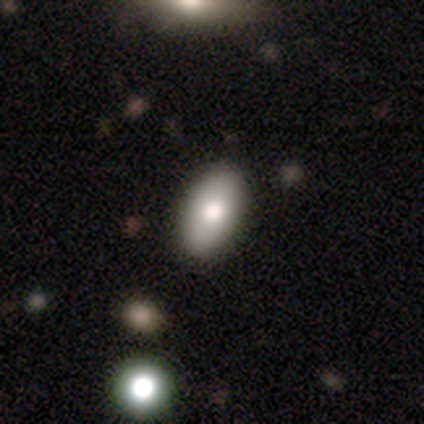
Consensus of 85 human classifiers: Smooth or featured: smooth — 81% (star or artifact — 11%)
How rounded: in between — 94% (round — 3%)
Merging: none — 89% (minor disturbance — 8%)